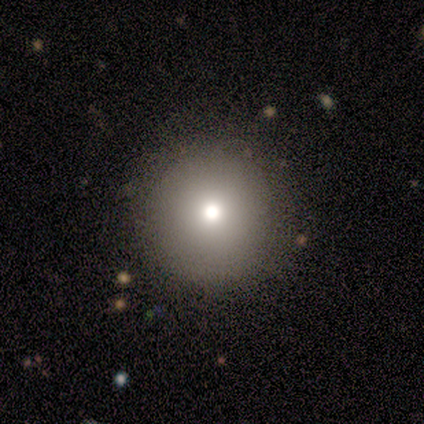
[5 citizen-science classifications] Morphology: type=smooth (80%); roundness=round (100%); merging=none (100%).